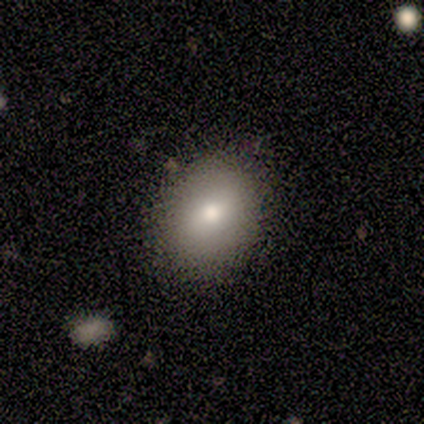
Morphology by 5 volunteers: This appears to be a smooth galaxy with no disk features (100%) that is in between round and cigar-shaped (60%). Merging: none (100%).